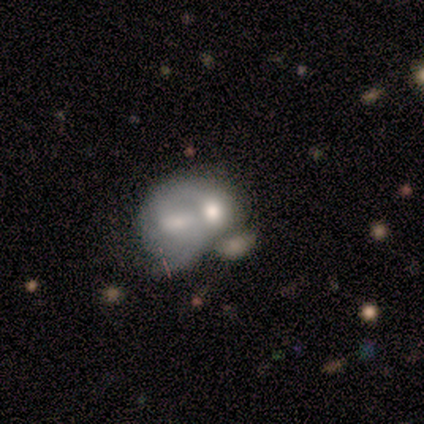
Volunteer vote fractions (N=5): smooth_or_featured: featured or disk (p=0.60) [alt: smooth p=0.20]
disk_edge_on: no (p=1.00)
bar: no (p=1.00)
has_spiral_arms: no (p=1.00)
bulge_size: moderate (p=0.67) [alt: none p=0.33]
merging: merger (p=0.75) [alt: minor disturbance p=0.25]